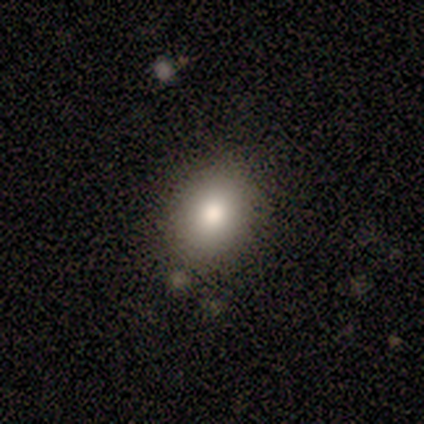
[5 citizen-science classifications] Morphology: type=smooth (80%); roundness=round (50%, tied with in between); merging=none (100%).